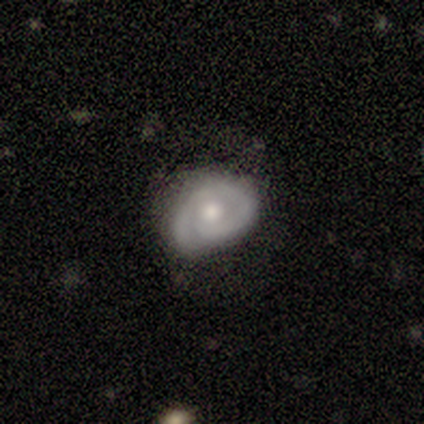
A featured or disk galaxy (100%) with no bar (100%), 1 (67%) tight (33%, tied with medium and loose) spiral arms (75%) and a moderate central bulge (75%). Merging: minor disturbance (50%).